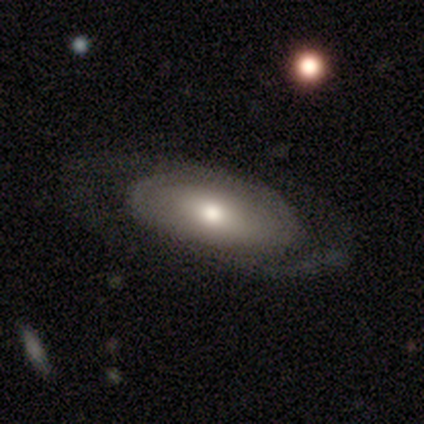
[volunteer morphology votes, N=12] Smooth or featured: featured or disk — 83% (smooth — 17%)
Edge-on disk: no — 80% (yes — 20%)
Bar: no — 75% (weak — 25%)
Spiral arms: yes — 75% (no — 25%)
Spiral winding: medium — 67% (tight — 33%)
Spiral arm count: 2 — 100%
Bulge size: moderate — 75% (small — 25%)
Merging: none — 83% (minor disturbance — 8%)